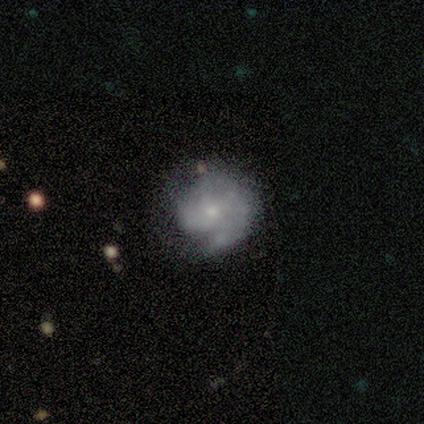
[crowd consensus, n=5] This appears to be a featured or disk galaxy (100%) with no bar (75%), 1 (50%) tight (75%) spiral arms (100%) and a moderate central bulge (50%). Merging: none (40%, tied with minor disturbance).